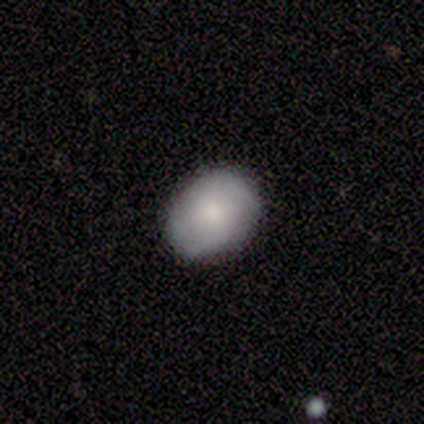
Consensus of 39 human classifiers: smooth_or_featured: smooth (p=0.74) [alt: featured or disk p=0.21]
how_rounded: in between (p=0.62) [alt: round p=0.38]
merging: none (p=0.86) [alt: minor disturbance p=0.11]